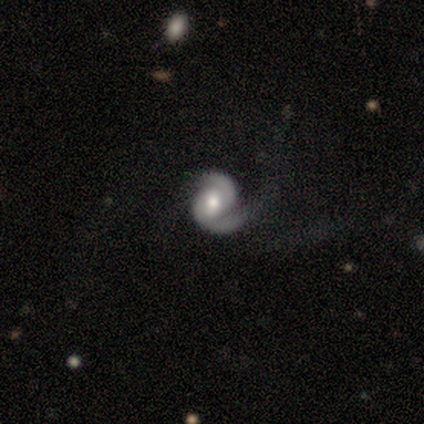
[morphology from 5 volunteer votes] Q: Smooth or featured?
A: featured or disk (100%)
Q: Edge-on disk?
A: no (100%)
Q: Bar?
A: no (80%); runner-up: weak (20%)
Q: Spiral arms?
A: yes (100%)
Q: Spiral winding?
A: tight (40%); tied with: medium (40%)
Q: Spiral arm count?
A: 2 (80%); runner-up: 1 (20%)
Q: Bulge size?
A: moderate (60%); runner-up: large (20%)
Q: Merging?
A: none (40%); tied with: minor disturbance (40%)